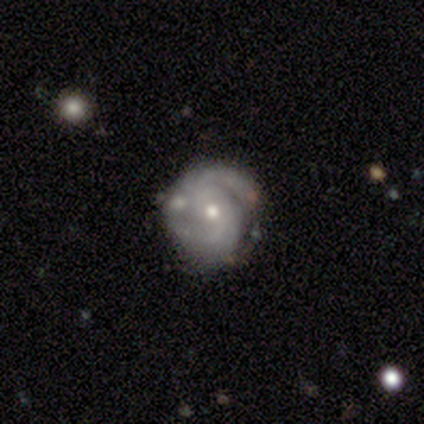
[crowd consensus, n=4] Smooth or featured? featured or disk (100%)
Edge-on disk? no (100%)
Bar? no (75%)
Spiral arms? yes (100%)
Spiral winding? tight (75%)
Spiral arm count? 2 (50%)
Bulge size? moderate (50%, tied with small)
Merging? none (50%, tied with minor disturbance)